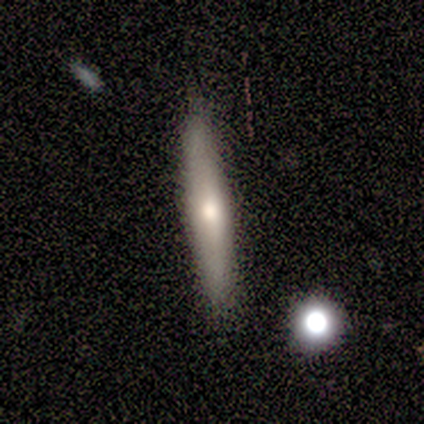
A featured or disk galaxy (80%) viewed edge-on (50%, tied with no) with a rounded central bulge (100%). Merging: none (100%).